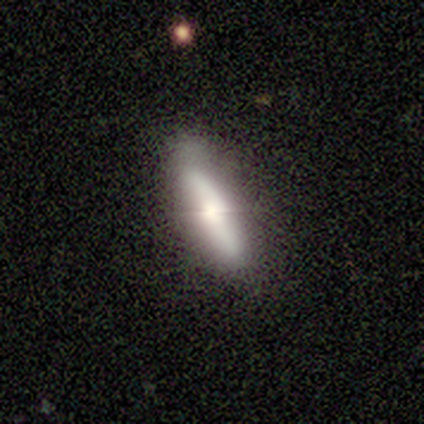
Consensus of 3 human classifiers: smooth-or-featured: smooth: 100% | featured or disk: 0% | star or artifact: 0%
  how-rounded: cigar-shaped: 100% | round: 0% | in between: 0%
  merging: none: 100% | minor disturbance: 0% | major disturbance: 0% | merger: 0%